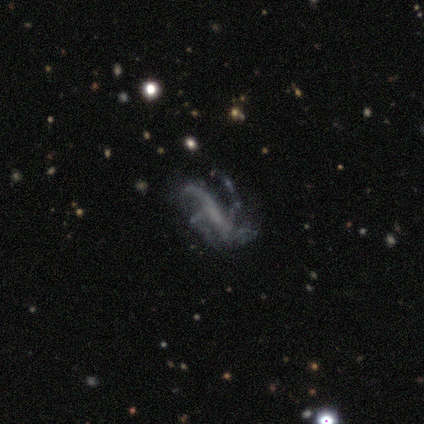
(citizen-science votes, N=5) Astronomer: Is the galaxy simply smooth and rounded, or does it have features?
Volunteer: featured or disk — 100%.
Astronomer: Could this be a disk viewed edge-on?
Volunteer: no — 80%.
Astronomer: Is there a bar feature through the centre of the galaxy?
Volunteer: no — 50%.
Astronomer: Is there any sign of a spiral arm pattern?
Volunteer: yes — 100%.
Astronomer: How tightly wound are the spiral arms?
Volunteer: medium — 75%.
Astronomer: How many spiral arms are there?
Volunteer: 3 — 50%.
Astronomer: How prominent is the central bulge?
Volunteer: none — 75%.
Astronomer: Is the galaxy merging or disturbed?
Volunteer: none — 60% (runner-up: major disturbance, 40%).